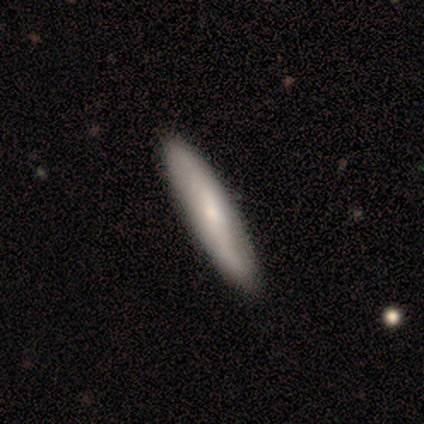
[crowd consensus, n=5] Smooth or featured? featured or disk (80%)
Edge-on disk? yes (75%)
Edge-on bulge? none (67%)
Merging? none (100%)